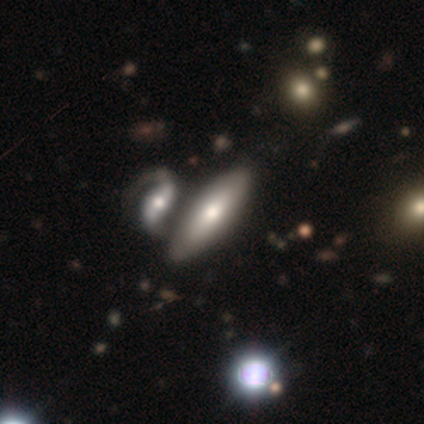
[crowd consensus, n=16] This is possibly a smooth galaxy (56%). How rounded: likely in between (78%). Merging: possibly none (53%).